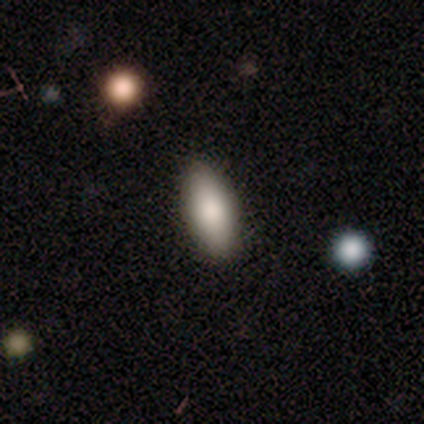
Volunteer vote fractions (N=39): Morphology: type=smooth (82%); roundness=in between (81%); merging=none (89%).